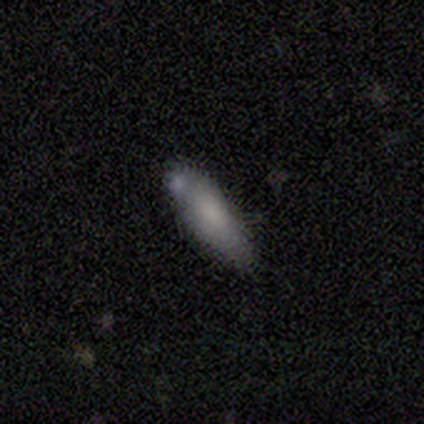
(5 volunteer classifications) Volunteers were most divided on "merging": none: 60%, merger: 40%, minor disturbance: 0%, major disturbance: 0%. More confident: smooth or featured — smooth (100%); how rounded — cigar-shaped (80%).